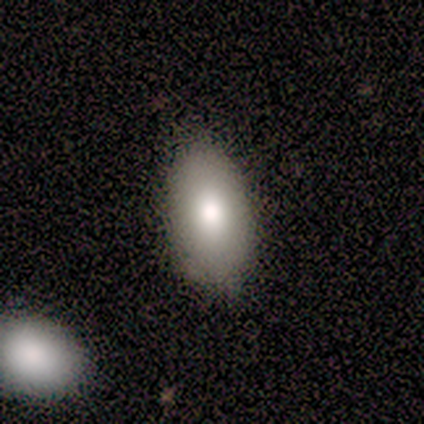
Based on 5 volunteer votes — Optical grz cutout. It shows a smooth galaxy with no disk features (80%) that is in between round and cigar-shaped (75%). Merging: none (100%).